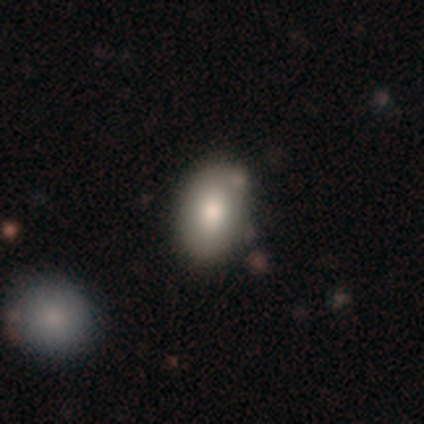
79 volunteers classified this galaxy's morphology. This appears to be a smooth galaxy with no disk features (85%) that is in between round and cigar-shaped (87%). Merging: none (37%).